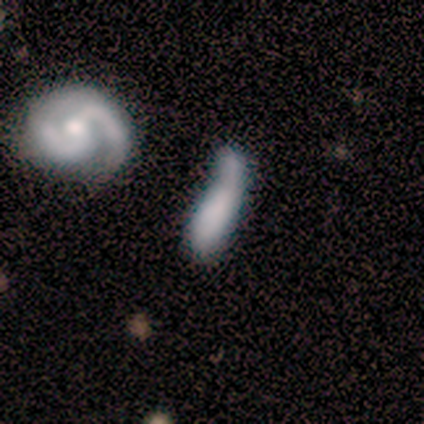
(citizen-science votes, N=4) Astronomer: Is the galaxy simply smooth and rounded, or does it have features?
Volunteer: featured or disk — 50%.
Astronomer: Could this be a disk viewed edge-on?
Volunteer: yes — 50%, tied with no at 50%.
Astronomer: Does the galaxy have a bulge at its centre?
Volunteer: none — 100%.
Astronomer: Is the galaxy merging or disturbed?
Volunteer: major disturbance — 67%.